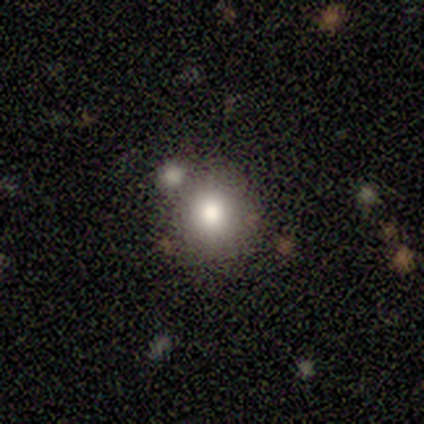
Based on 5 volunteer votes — smooth_or_featured: smooth (p=0.80) [alt: featured or disk p=0.20]
how_rounded: round (p=0.75) [alt: in between p=0.25]
merging: none (p=0.40) [tied with: merger p=0.40]